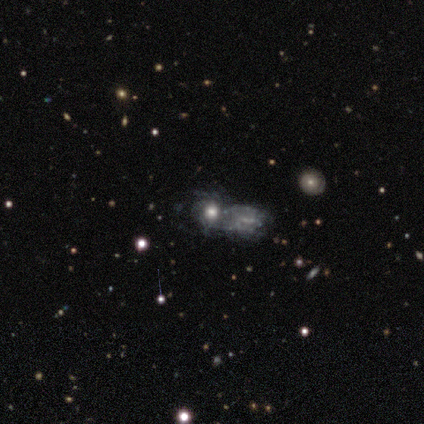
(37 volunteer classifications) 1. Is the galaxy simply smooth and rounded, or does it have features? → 65% featured or disk, 27% smooth, 8% star or artifact.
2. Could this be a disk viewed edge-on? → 96% no, 4% yes.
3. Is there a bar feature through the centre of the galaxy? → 87% no, 13% weak, 0% strong.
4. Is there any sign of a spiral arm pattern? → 61% yes, 39% no.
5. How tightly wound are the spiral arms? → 64% tight, 21% medium, 14% loose.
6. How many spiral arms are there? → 79% can't tell, 14% more than 4, 7% 3, 0% 1, 0% 2, 0% 4.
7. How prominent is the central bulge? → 48% large, 39% moderate, 9% small, 4% dominant, 0% none.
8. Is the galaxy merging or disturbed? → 65% merger, 18% none, 18% minor disturbance, 0% major disturbance.